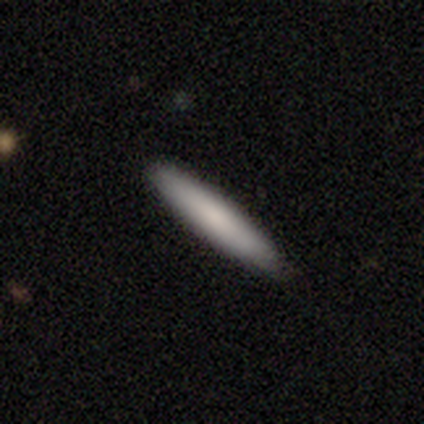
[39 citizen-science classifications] Q: Smooth or featured?
A: smooth (82%); runner-up: star or artifact (13%)
Q: How rounded?
A: cigar-shaped (94%); runner-up: in between (6%)
Q: Merging?
A: none (94%); runner-up: minor disturbance (6%)